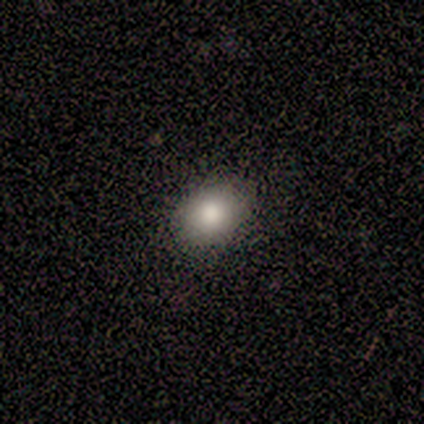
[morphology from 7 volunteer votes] smooth 100%, featured or disk 0%, star or artifact 0%. Down the decision tree: how rounded — in between (71%); merging — none (100%).